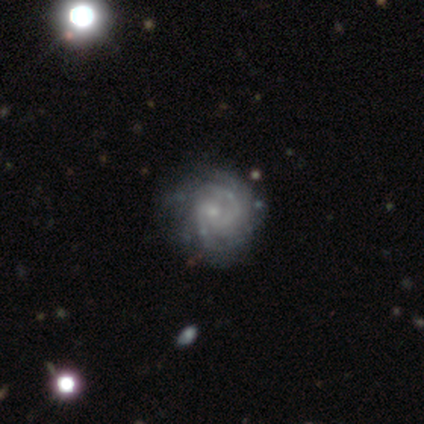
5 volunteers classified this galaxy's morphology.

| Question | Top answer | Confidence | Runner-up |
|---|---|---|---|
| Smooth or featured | featured or disk | 80% | star or artifact (20%) |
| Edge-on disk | no | 100% | — |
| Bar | weak | 75% | no (25%) |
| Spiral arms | yes | 75% | no (25%) |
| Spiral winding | tight | 67% | medium (33%) |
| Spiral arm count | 4 | 33% | tied: more than 4 (33%), can't tell (33%) |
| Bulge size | small | 75% | none (25%) |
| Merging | minor disturbance | 50% | tied: major disturbance (50%) |